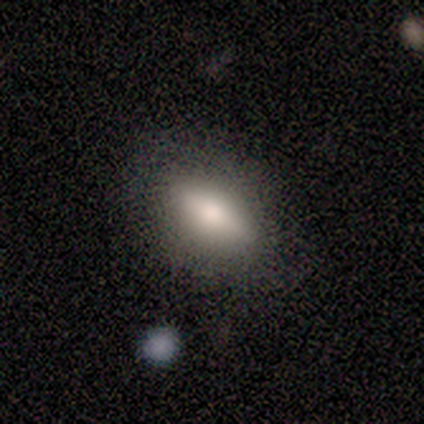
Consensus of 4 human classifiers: This is possibly a smooth galaxy (50%, tied with featured or disk). How rounded: possibly in between (50%, tied with cigar-shaped). Merging: likely none (75%).